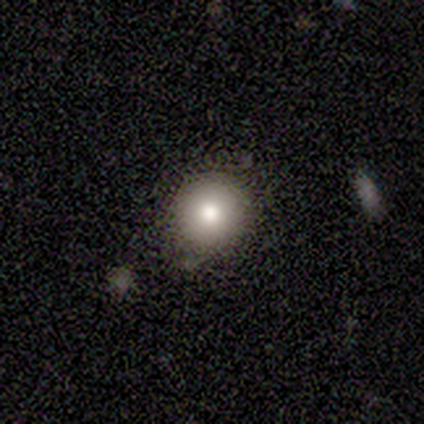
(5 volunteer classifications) A smooth galaxy with no disk features (100%) that is round (100%). Merging: none (60%).